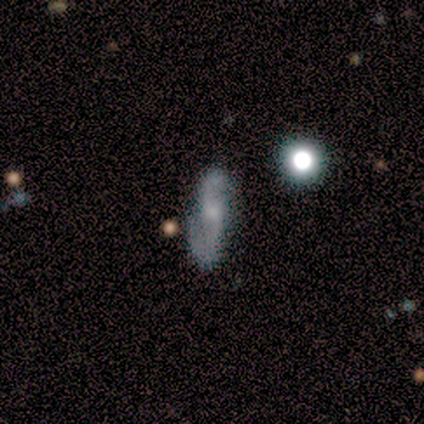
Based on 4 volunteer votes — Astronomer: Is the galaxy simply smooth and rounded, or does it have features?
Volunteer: smooth — 50%, tied with featured or disk at 50%.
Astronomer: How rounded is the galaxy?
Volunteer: in between — 50%, tied with cigar-shaped at 50%.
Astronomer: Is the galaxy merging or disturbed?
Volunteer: none — 50%.